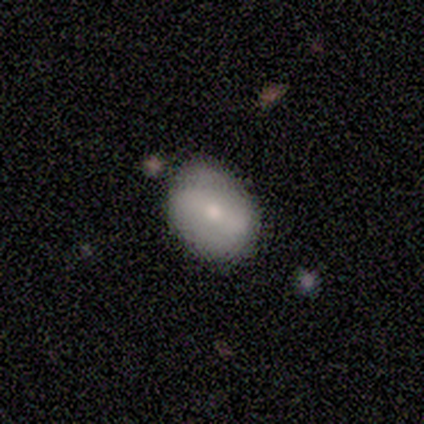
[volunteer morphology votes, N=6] Smooth or featured: featured or disk — 50% (smooth — 33%)
Edge-on disk: no — 100%
Bar: weak — 67% (no — 33%)
Spiral arms: no — 100%
Bulge size: small — 100%
Merging: none — 80% (minor disturbance — 20%)